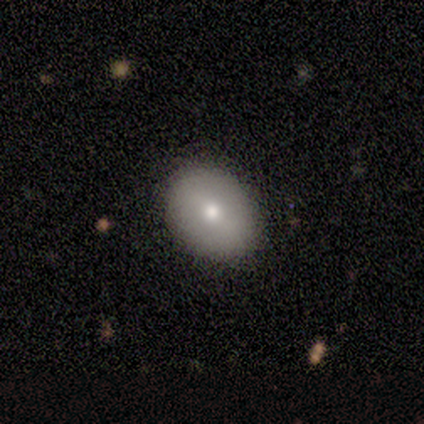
This is likely a smooth galaxy (67%). How rounded: clearly in between (100%). Merging: clearly none (100%).